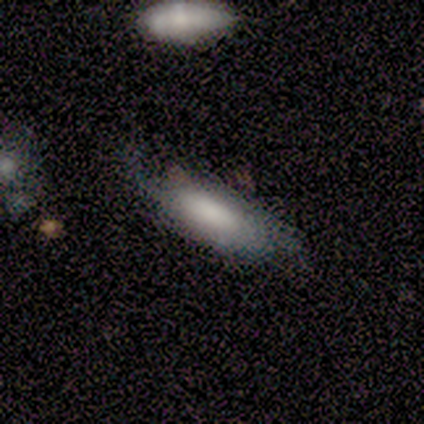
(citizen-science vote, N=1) This is clearly a star or artifact rather than a galaxy (100%).